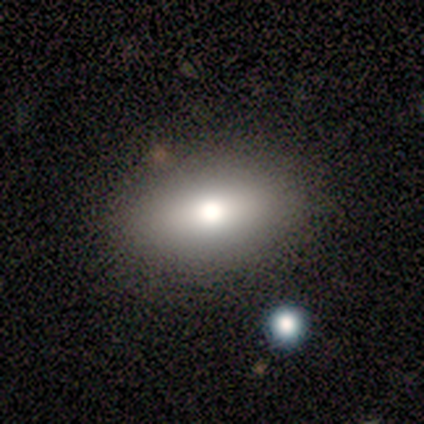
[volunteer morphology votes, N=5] smooth-or-featured: smooth: 60% | featured or disk: 20% | star or artifact: 20%
  how-rounded: round: 67% | in between: 33% | cigar-shaped: 0%
  merging: none: 75% | merger: 25% | minor disturbance: 0% | major disturbance: 0%